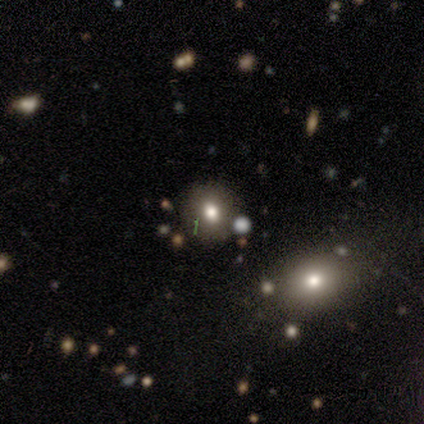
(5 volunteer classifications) smooth-or-featured: smooth: 60% | star or artifact: 40% | featured or disk: 0%
  how-rounded: round: 100% | in between: 0% | cigar-shaped: 0%
  merging: none: 100% | minor disturbance: 0% | major disturbance: 0% | merger: 0%